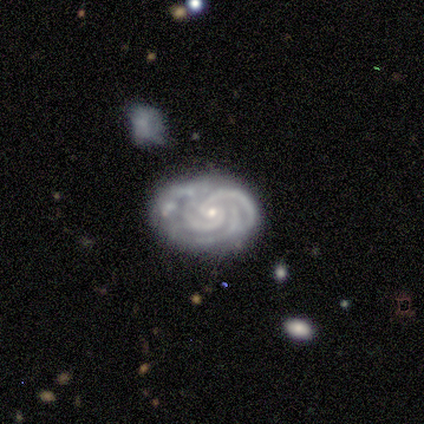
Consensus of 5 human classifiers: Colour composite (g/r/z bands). It shows a featured or disk galaxy (80%) with no bar (75%), 2 (75%) tight (100%) spiral arms (100%) and a small central bulge (100%). Merging: none (80%).